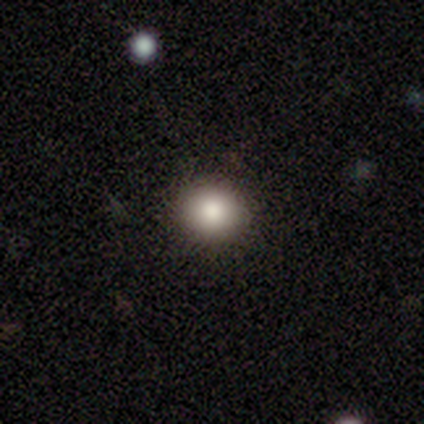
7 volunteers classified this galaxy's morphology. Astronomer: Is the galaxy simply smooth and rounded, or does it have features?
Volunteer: smooth — 100%.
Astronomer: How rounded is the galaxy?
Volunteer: round — 86%.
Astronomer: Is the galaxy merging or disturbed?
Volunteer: none — 71%.